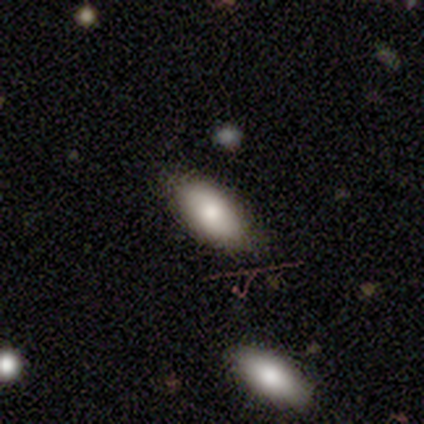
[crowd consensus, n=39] Smooth or featured? smooth (77%)
How rounded? in between (97%)
Merging? none (82%)